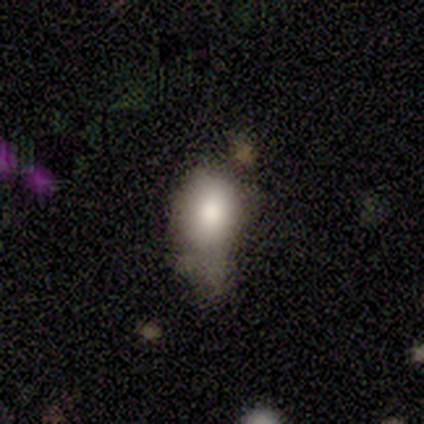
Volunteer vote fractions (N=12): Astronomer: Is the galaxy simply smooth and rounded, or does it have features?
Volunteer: smooth — 83%.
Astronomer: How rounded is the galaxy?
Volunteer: in between — 70%.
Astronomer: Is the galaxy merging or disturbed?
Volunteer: minor disturbance — 73%.